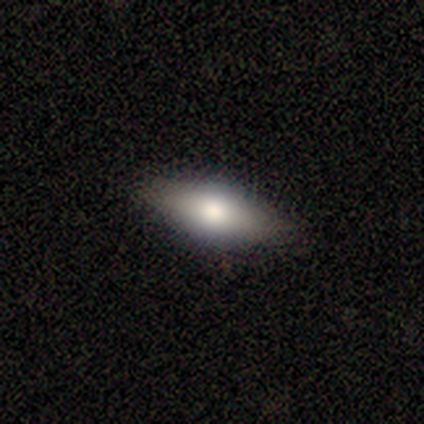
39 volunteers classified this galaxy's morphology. Smooth or featured: featured or disk — 51% (smooth — 41%)
Edge-on disk: yes — 65% (no — 35%)
Edge-on bulge: rounded — 92% (boxy — 8%)
Merging: none — 83% (minor disturbance — 17%)